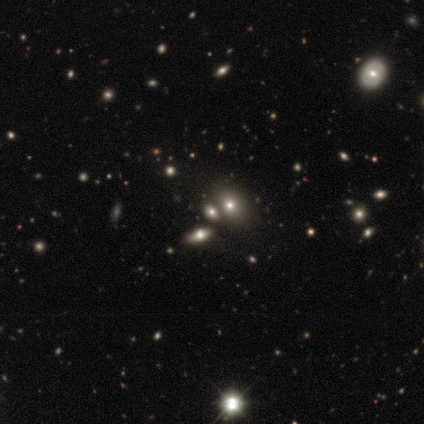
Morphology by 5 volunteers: Volunteers were most divided on "smooth or featured": star or artifact: 60%, smooth: 40%, featured or disk: 0%.